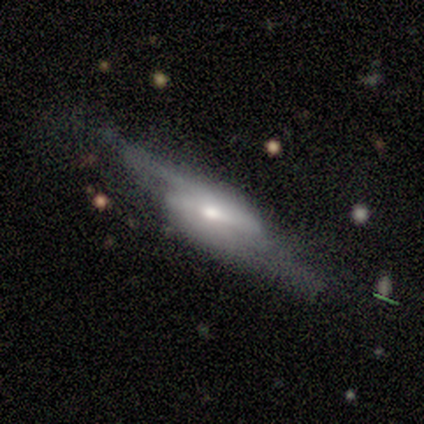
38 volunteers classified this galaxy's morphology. smooth-or-featured: featured or disk: 87% | smooth: 8% | star or artifact: 5%
  disk-edge-on: no: 82% | yes: 18%
    bar: strong: 67% | weak: 26% | no: 7%
    has-spiral-arms: yes: 89% | no: 11%
      spiral-winding: loose: 58% | medium: 25% | tight: 17%
      spiral-arm-count: 2: 79% | 1: 17% | can't tell: 4% | 3: 0% | 4: 0% | more than 4: 0%
    bulge-size: moderate: 63% | small: 30% | large: 7% | dominant: 0% | none: 0%
  merging: none: 56% | minor disturbance: 28% | major disturbance: 17% | merger: 0%